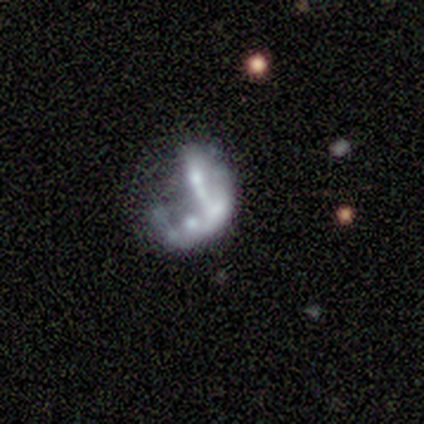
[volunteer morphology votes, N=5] Smooth or featured?
  - smooth: 60% *
  - featured or disk: 40%
  - star or artifact: 0%
How rounded?
  - in between: 100% *
  - round: 0%
  - cigar-shaped: 0%
Merging?
  - major disturbance: 40% * (tied)
  - merger: 40% * (tied)
  - none: 20%
  - minor disturbance: 0%